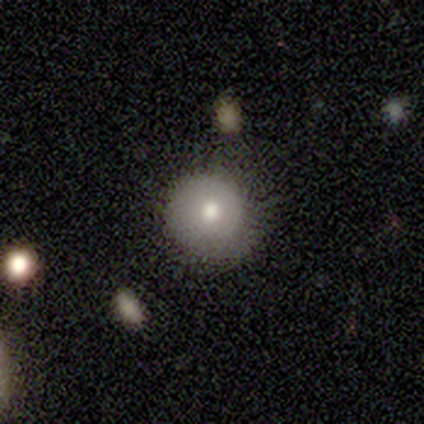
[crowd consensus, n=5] Q: Smooth or featured?
A: smooth (80%); runner-up: featured or disk (20%)
Q: How rounded?
A: round (100%)
Q: Merging?
A: none (100%)